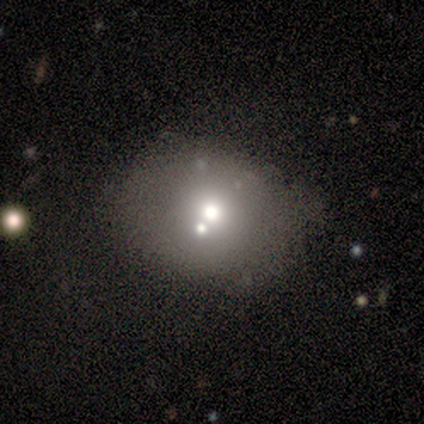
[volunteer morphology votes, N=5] This is likely a smooth galaxy (60%). How rounded: clearly round (100%). Merging: possibly none (50%).